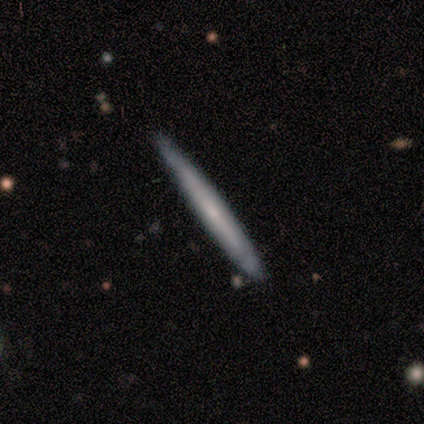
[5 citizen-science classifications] featured or disk 60%, smooth 40%, star or artifact 0%. Down the decision tree: edge-on disk — yes (100%); edge-on bulge — none (67%); merging — none (100%).